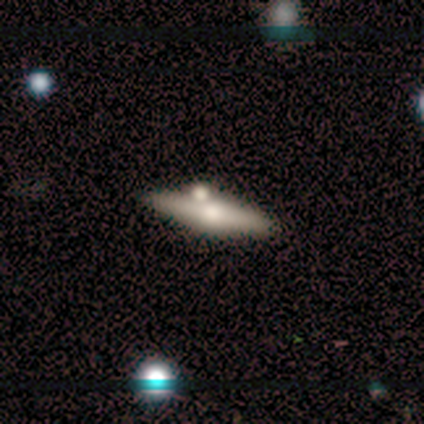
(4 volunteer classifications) A smooth galaxy with no disk features (50%, tied with featured or disk) that is cigar-shaped (100%).

Vote fractions:
- Smooth or featured? smooth: 50% (tied) / featured or disk: 50% (tied) / star or artifact: 0%
- How rounded? cigar-shaped: 100% / round: 0% / in between: 0%
- Merging? none: 75% / merger: 25% / minor disturbance: 0% / major disturbance: 0%